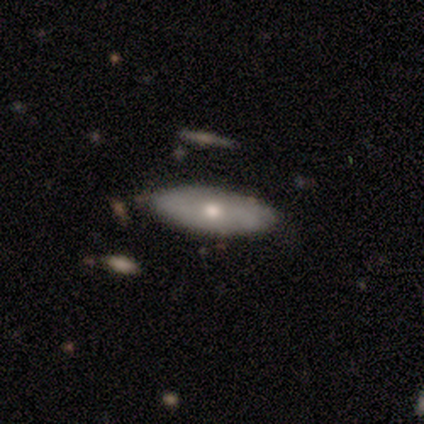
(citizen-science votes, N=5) smooth-or-featured: smooth: 80% | featured or disk: 20% | star or artifact: 0%
  how-rounded: in between: 75% | cigar-shaped: 25% | round: 0%
  merging: none: 80% | major disturbance: 20% | minor disturbance: 0% | merger: 0%